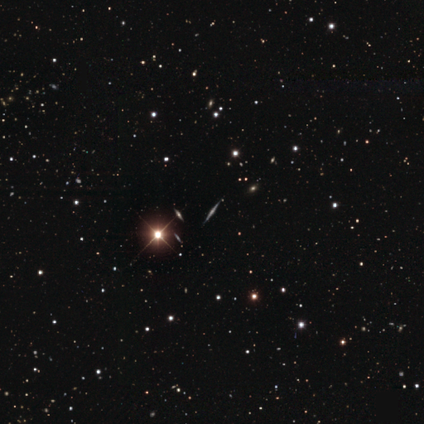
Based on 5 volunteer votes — Q: Smooth or featured?
A: featured or disk (60%); runner-up: star or artifact (40%)
Q: Edge-on disk?
A: yes (100%)
Q: Edge-on bulge?
A: rounded (100%)
Q: Merging?
A: none (100%)